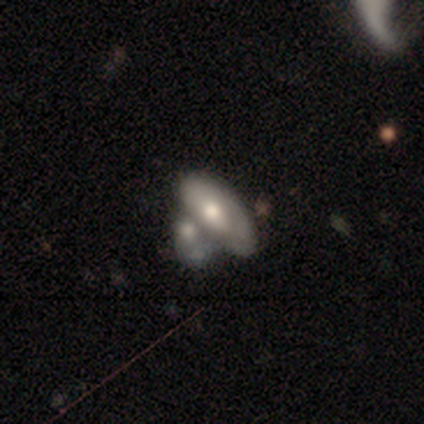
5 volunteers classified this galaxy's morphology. Overall: smooth (60%; featured or disk 40%). How rounded: in between (100%). Merging: merger (60%; none 20%).